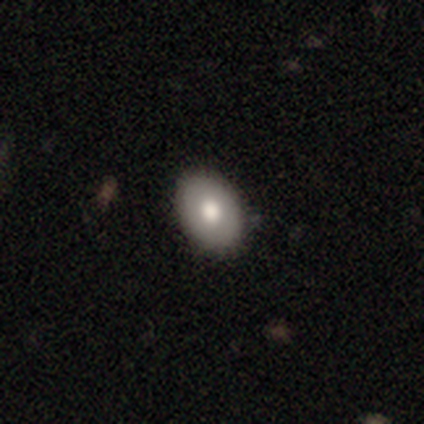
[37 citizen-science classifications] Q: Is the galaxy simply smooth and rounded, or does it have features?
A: smooth — 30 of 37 (81%).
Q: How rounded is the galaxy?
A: in between — 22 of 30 (73%).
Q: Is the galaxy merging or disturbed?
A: none — 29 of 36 (81%).